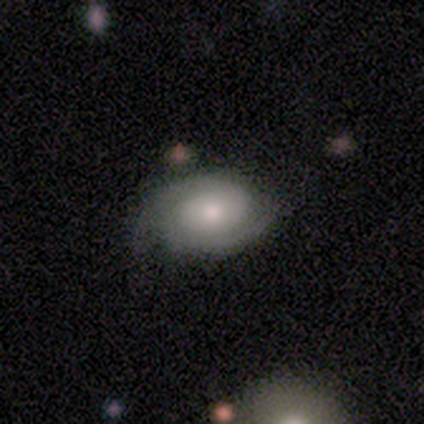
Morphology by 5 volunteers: smooth-or-featured: featured or disk: 60% | smooth: 40% | star or artifact: 0%
  disk-edge-on: no: 100% | yes: 0%
    bar: no: 100% | strong: 0% | weak: 0%
    has-spiral-arms: yes: 100% | no: 0%
      spiral-winding: tight: 33% (tied) | medium: 33% (tied) | loose: 33% (tied)
      spiral-arm-count: 2: 100% | 1: 0% | 3: 0% | 4: 0% | more than 4: 0% | can't tell: 0%
    bulge-size: moderate: 67% | large: 33% | dominant: 0% | small: 0% | none: 0%
  merging: none: 80% | minor disturbance: 20% | major disturbance: 0% | merger: 0%